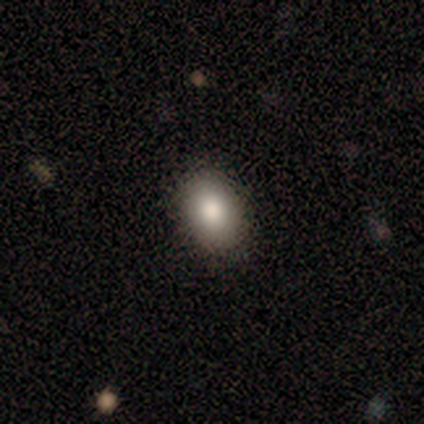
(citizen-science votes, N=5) This appears to be a smooth galaxy with no disk features (60%) that is in between round and cigar-shaped (100%). Merging: none (100%).